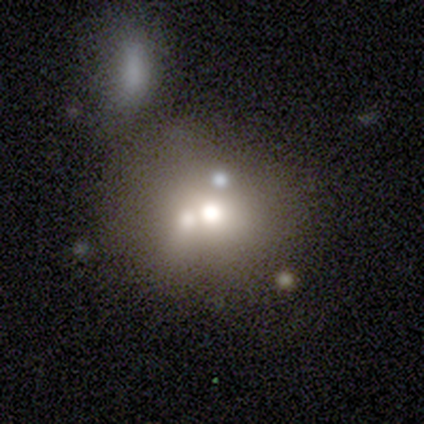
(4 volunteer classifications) A featured or disk galaxy (50%) with no bar (100%), no spiral arms (100%) and a moderate central bulge (50%, tied with none). Merging: merger (67%).